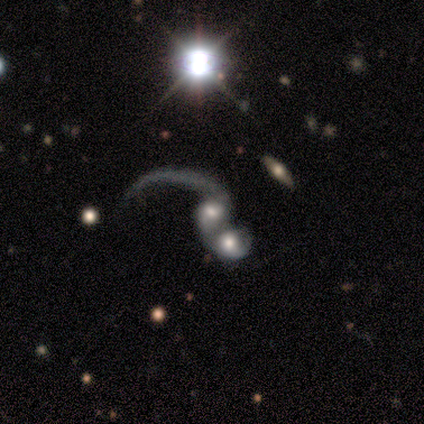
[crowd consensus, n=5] This is likely a featured or disk galaxy (60%). It is clearly not viewed edge-on (100%). Bar: likely strong (67%). Spiral arm pattern: clearly yes (100%). Spiral arm count: likely 2 (67%). Spiral winding: clearly loose (100%). Central bulge: clearly moderate (100%). Merging: likely merger (75%).